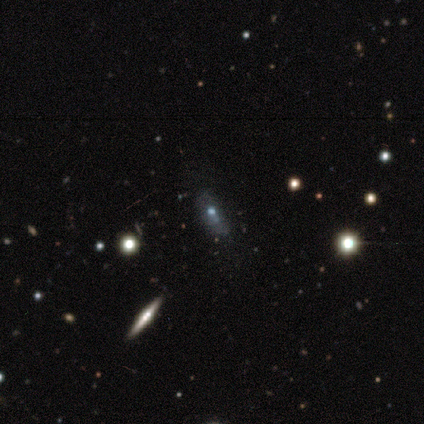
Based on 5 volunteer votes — This appears to be a smooth galaxy with no disk features (40%, tied with featured or disk) that is in between round and cigar-shaped (50%, tied with cigar-shaped). Merging: none (50%).